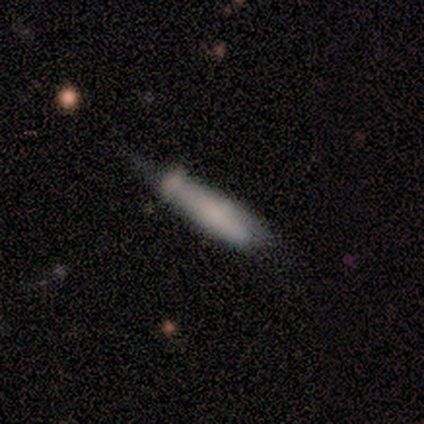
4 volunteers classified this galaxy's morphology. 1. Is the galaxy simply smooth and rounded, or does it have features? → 50% smooth (tied), 50% star or artifact (tied), 0% featured or disk.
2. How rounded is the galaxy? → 100% cigar-shaped, 0% round, 0% in between.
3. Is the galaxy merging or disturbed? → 100% none, 0% minor disturbance, 0% major disturbance, 0% merger.